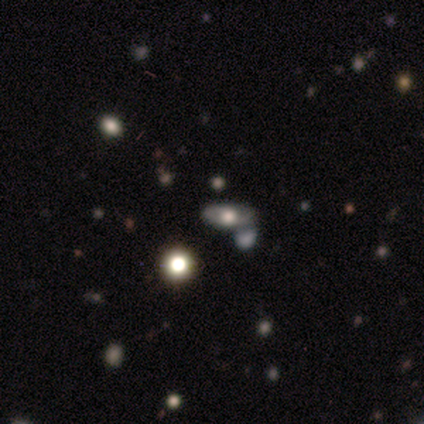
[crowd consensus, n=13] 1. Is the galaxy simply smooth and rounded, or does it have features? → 46% featured or disk, 38% smooth, 15% star or artifact.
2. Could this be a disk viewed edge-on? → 50% yes (tied), 50% no (tied).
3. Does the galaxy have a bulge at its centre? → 100% rounded, 0% boxy, 0% none.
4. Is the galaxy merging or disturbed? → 64% none, 18% minor disturbance, 9% major disturbance, 9% merger.